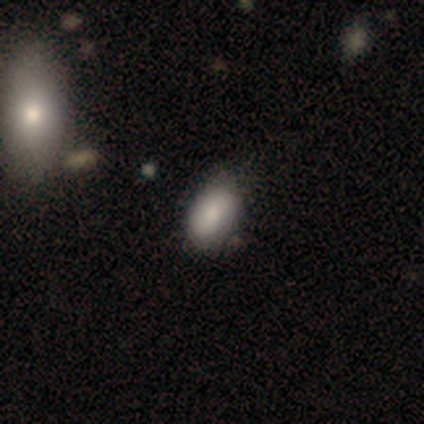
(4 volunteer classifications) Smooth or featured?
  - smooth: 75% *
  - featured or disk: 25%
  - star or artifact: 0%
How rounded?
  - in between: 67% *
  - round: 33%
  - cigar-shaped: 0%
Merging?
  - none: 75% *
  - minor disturbance: 25%
  - major disturbance: 0%
  - merger: 0%